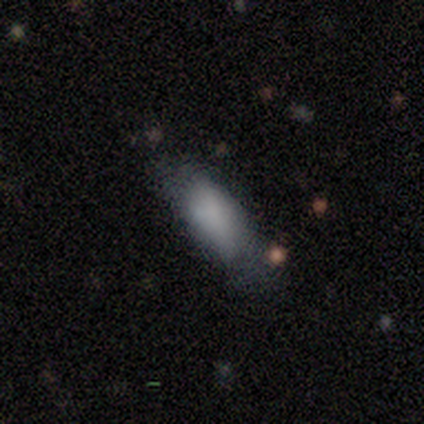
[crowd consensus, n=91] Morphology: type=smooth (84%); roundness=in between (67%); merging=none (61%).